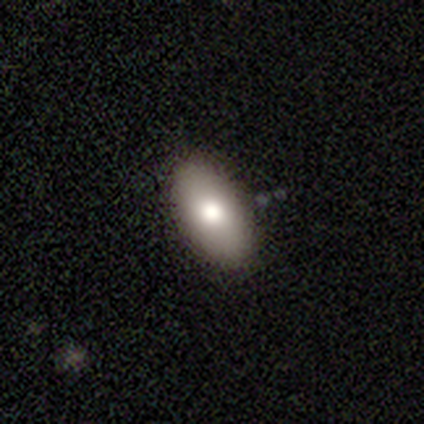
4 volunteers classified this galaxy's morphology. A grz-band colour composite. It shows a smooth galaxy with no disk features (50%) that is in between round and cigar-shaped (100%). Merging: none (67%).